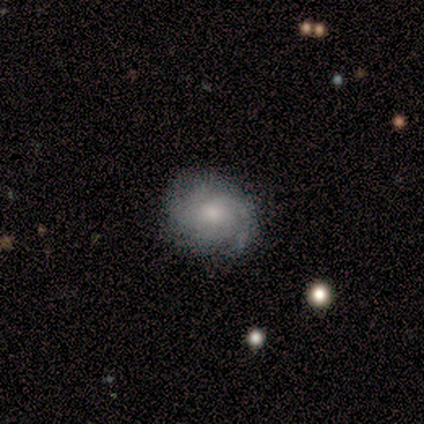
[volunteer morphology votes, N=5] type=featured or disk (80%); edge-on=no (100%); bar=no (100%); spiral arms=yes (100%); winding=tight (50%); arm count=can't tell (50%); bulge=moderate (50%); merging=none (80%).